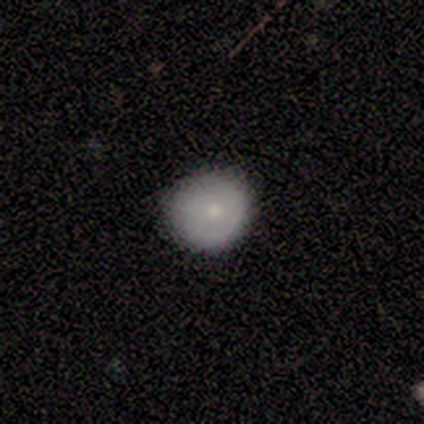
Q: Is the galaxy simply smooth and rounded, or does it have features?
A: smooth — 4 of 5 (80%).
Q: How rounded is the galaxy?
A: round — 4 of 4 (100%).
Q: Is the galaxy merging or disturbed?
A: none — 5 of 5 (100%).